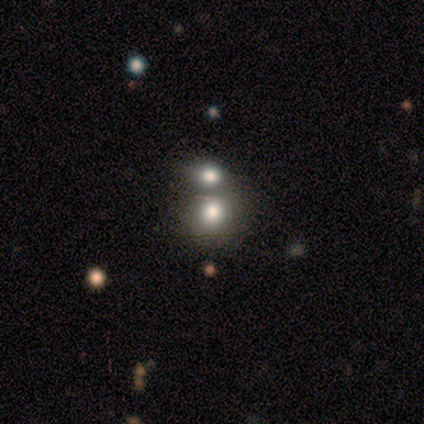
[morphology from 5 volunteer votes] This appears to be a smooth galaxy with no disk features (80%) that is round (75%). Merging: none (50%).